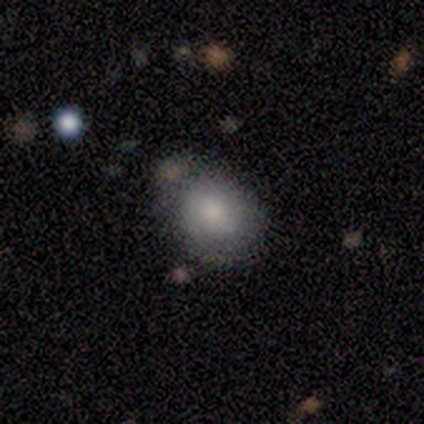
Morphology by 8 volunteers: This appears to be a smooth galaxy with no disk features (62%) that is round (60%). Merging: none (62%).